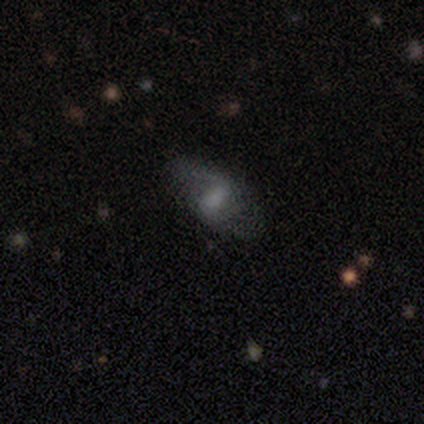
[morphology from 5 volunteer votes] Smooth or featured?
  - featured or disk: 80% *
  - smooth: 20%
  - star or artifact: 0%
Edge-on disk?
  - no: 100% *
  - yes: 0%
Bar?
  - weak: 50% *
  - strong: 25%
  - no: 25%
Spiral arms?
  - yes: 100% *
  - no: 0%
Spiral winding?
  - loose: 75% *
  - medium: 25%
  - tight: 0%
Spiral arm count?
  - 2: 75% *
  - can't tell: 25%
  - 1: 0%
  - 3: 0%
  - 4: 0%
  - more than 4: 0%
Bulge size?
  - moderate: 50% *
  - small: 25%
  - none: 25%
  - dominant: 0%
  - large: 0%
Merging?
  - none: 60% *
  - major disturbance: 40%
  - minor disturbance: 0%
  - merger: 0%